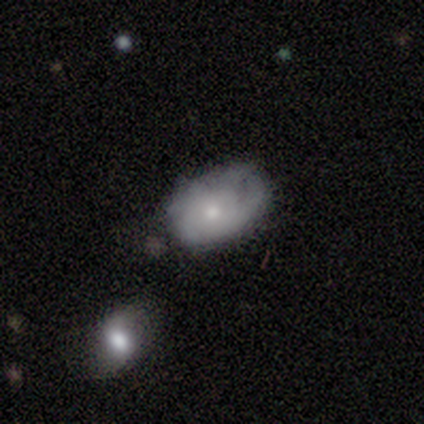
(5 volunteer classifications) Smooth or featured? 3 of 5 (60%) said featured or disk. Edge-on disk? 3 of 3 (100%) said no. Bar? 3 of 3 (100%) said no. Spiral arms? 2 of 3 (67%) said no. Bulge size? 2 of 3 (67%) said small. Merging? 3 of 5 (60%) said minor disturbance.